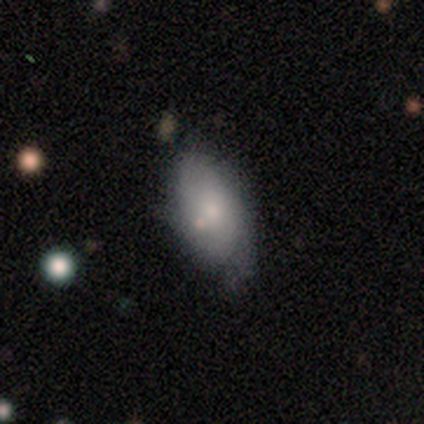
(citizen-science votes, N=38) smooth 74%, featured or disk 21%, star or artifact 5%. Down the decision tree: how rounded — in between (93%); merging — none (50%).